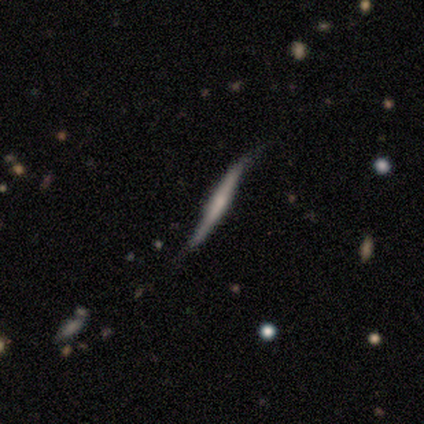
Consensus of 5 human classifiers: A featured or disk galaxy (100%) viewed edge-on (60%) with no central bulge (67%).

Vote fractions:
- Smooth or featured? featured or disk: 100% / smooth: 0% / star or artifact: 0%
- Edge-on disk? yes: 60% / no: 40%
- Edge-on bulge? none: 67% / rounded: 33% / boxy: 0%
- Merging? none: 60% / minor disturbance: 40% / major disturbance: 0% / merger: 0%